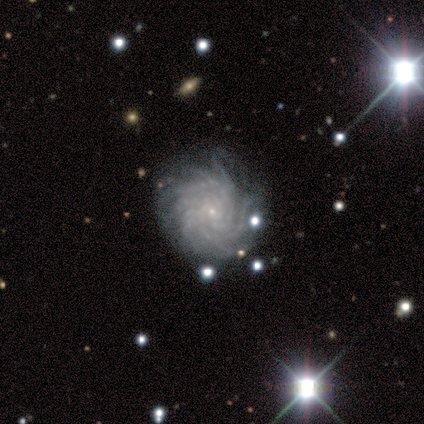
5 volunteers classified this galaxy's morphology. smooth-or-featured: featured or disk: 100% | smooth: 0% | star or artifact: 0%
  disk-edge-on: no: 100% | yes: 0%
    bar: no: 80% | weak: 20% | strong: 0%
    has-spiral-arms: yes: 100% | no: 0%
      spiral-winding: tight: 60% | medium: 20% | loose: 20%
      spiral-arm-count: more than 4: 60% | 4: 20% | can't tell: 20% | 1: 0% | 2: 0% | 3: 0%
    bulge-size: small: 100% | dominant: 0% | large: 0% | moderate: 0% | none: 0%
  merging: none: 80% | minor disturbance: 20% | major disturbance: 0% | merger: 0%